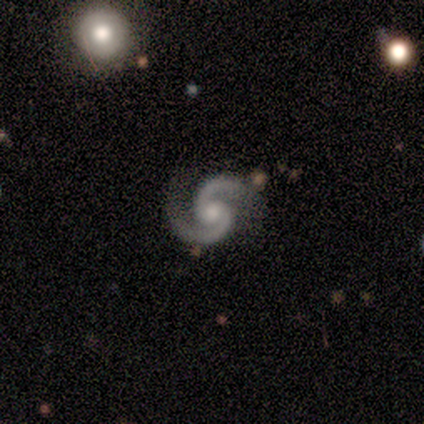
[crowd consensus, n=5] Volunteers were most divided on "bar" (2-way tie): weak: 40%, no: 40%, strong: 20%; "bulge size" (2-way tie): large: 40%, moderate: 40%, none: 20%, dominant: 0%, small: 0%. More confident: smooth or featured — featured or disk (100%); edge-on disk — no (100%); spiral arms — yes (100%); spiral arm count — 2 (100%); merging — none (100%); spiral winding — medium (60%).